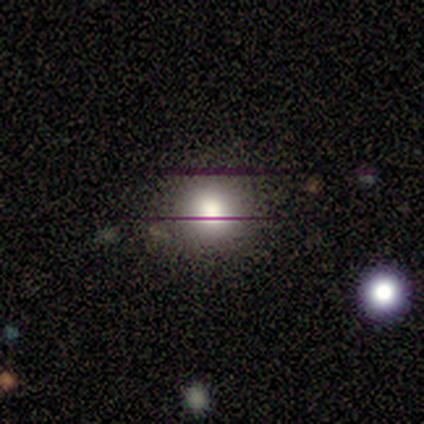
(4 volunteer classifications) smooth_or_featured: smooth (p=0.75) [alt: star or artifact p=0.25]
how_rounded: round (p=1.00)
merging: none (p=1.00)